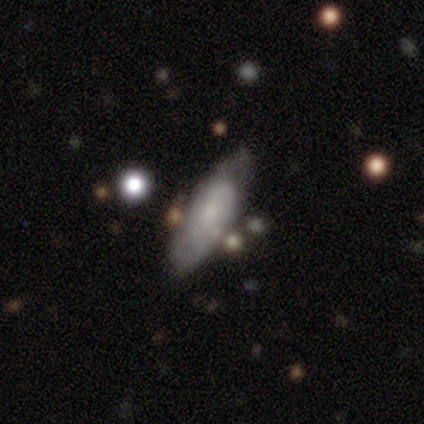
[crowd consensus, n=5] Morphology: type=smooth (80%); roundness=in between (50%, tied with cigar-shaped); merging=none (60%).